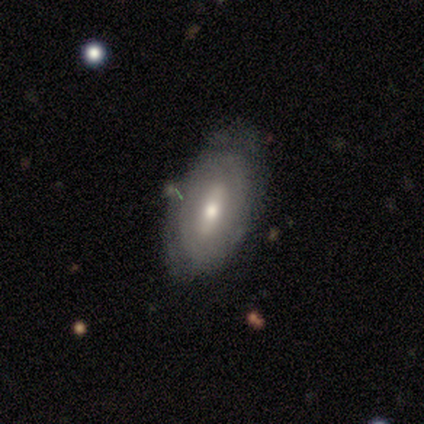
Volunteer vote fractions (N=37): Morphology: type=smooth (49%); roundness=in between (100%); merging=none (68%).